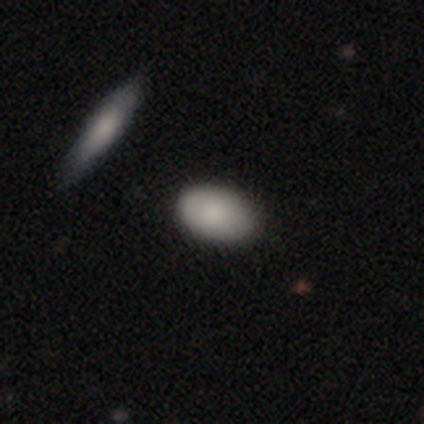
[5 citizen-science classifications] This is clearly a smooth galaxy (100%). How rounded: clearly in between (100%). Merging: likely none (60%).